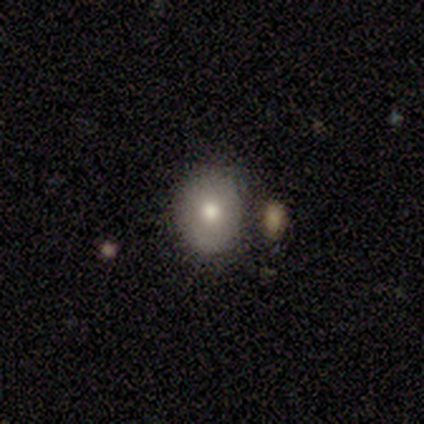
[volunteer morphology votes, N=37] Overall: smooth (73%). How rounded: round (56%; in between 44%). Merging: none (74%).